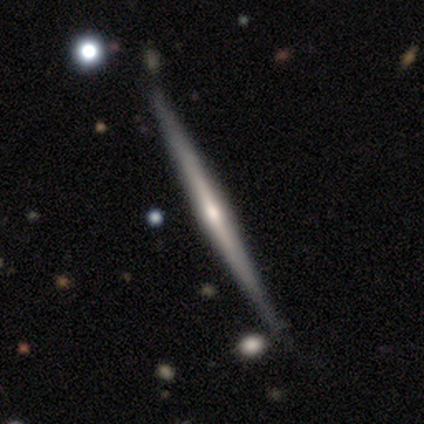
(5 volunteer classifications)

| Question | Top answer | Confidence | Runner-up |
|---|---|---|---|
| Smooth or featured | featured or disk | 100% | — |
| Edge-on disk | yes | 100% | — |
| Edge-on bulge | rounded | 60% | none (40%) |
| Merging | none | 100% | — |